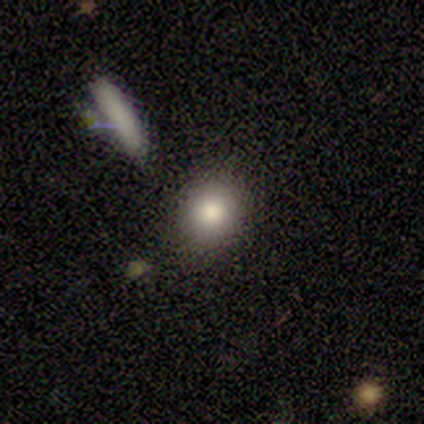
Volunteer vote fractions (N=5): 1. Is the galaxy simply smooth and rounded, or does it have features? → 60% smooth, 20% featured or disk, 20% star or artifact.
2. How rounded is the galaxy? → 67% round, 33% in between, 0% cigar-shaped.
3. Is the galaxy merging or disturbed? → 100% none, 0% minor disturbance, 0% major disturbance, 0% merger.